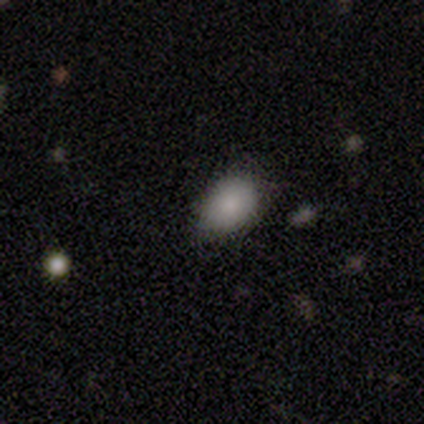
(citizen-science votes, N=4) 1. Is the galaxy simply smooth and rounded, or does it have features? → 100% smooth, 0% featured or disk, 0% star or artifact.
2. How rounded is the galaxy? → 100% in between, 0% round, 0% cigar-shaped.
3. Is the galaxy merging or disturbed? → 50% none, 25% minor disturbance, 25% merger, 0% major disturbance.